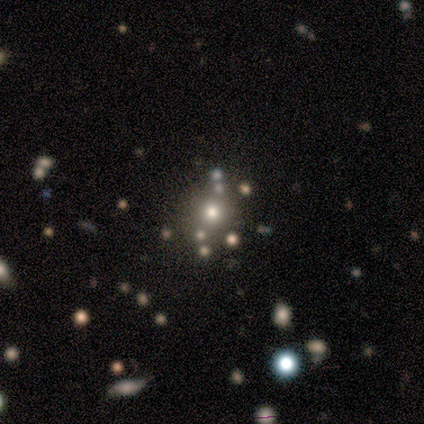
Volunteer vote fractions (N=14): A smooth galaxy with no disk features (64%) that is round (100%). Merging: none (82%).